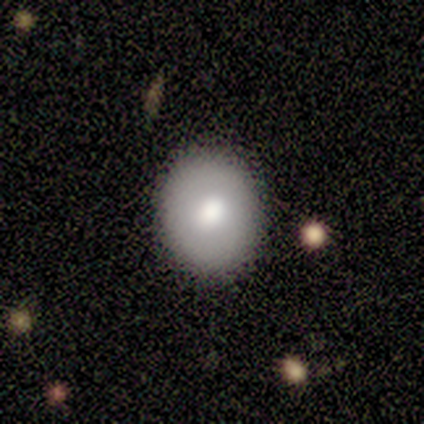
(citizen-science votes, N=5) Q: Smooth or featured?
A: smooth (100%)
Q: How rounded?
A: round (60%); runner-up: in between (40%)
Q: Merging?
A: none (100%)